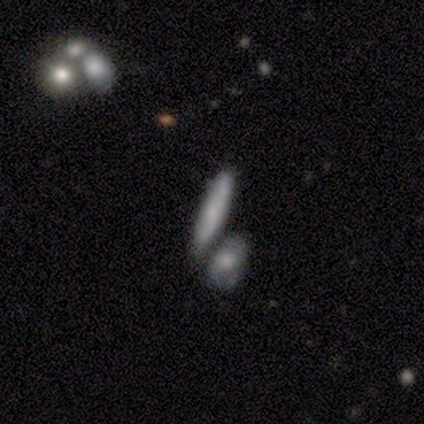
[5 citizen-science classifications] Smooth or featured: smooth — 80% (featured or disk — 20%)
How rounded: cigar-shaped — 75% (in between — 25%)
Merging: none — 100%